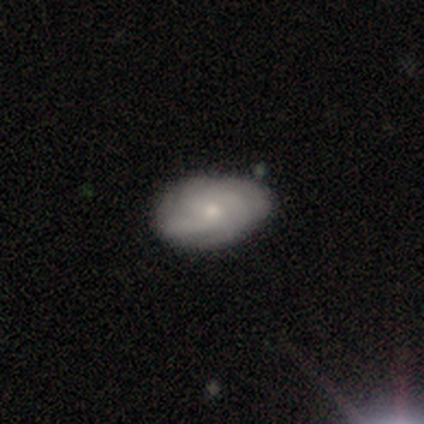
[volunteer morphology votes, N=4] Volunteers were most divided on "bar": no: 67%, weak: 33%, strong: 0%. More confident: edge-on disk — no (100%); spiral arms — yes (100%); spiral winding — tight (100%); merging — none (100%); smooth or featured — featured or disk (75%); spiral arm count — can't tell (67%); bulge size — small (67%).